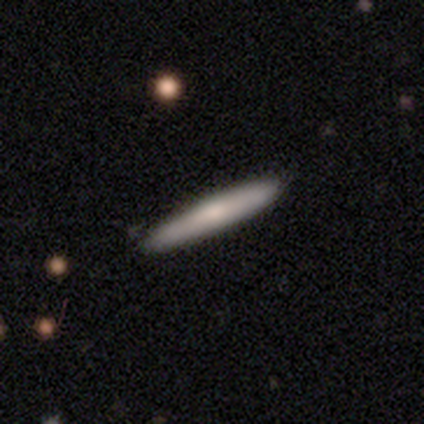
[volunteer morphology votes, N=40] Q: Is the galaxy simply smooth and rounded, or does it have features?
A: smooth — 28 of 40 (70%).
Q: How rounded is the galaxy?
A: cigar-shaped — 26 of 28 (93%).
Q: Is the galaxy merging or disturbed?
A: none — 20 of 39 (51%).